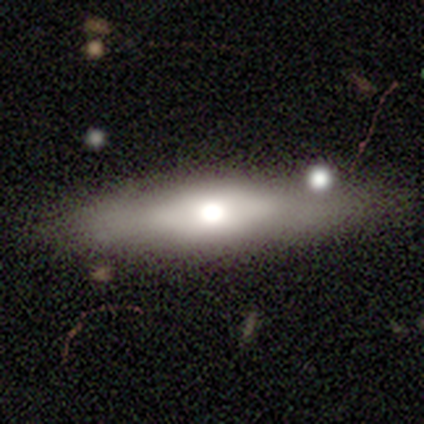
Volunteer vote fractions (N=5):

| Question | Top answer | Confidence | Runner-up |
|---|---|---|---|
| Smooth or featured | featured or disk | 60% | smooth (40%) |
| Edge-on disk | yes | 100% | — |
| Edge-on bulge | rounded | 67% | none (33%) |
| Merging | none | 60% | minor disturbance (40%) |